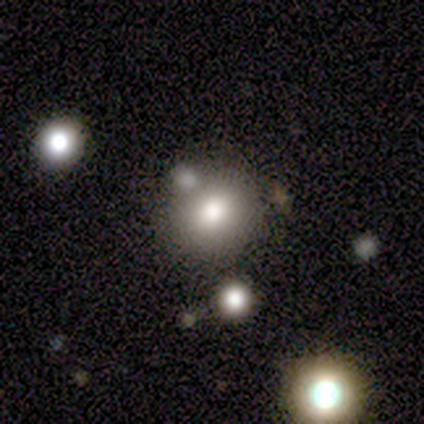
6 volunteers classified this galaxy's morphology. Overall: smooth (67%). How rounded: round (100%). Merging: none (80%).